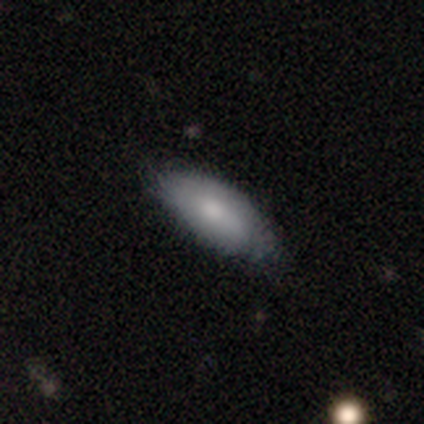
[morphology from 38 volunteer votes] type=smooth (71%); roundness=in between (85%); merging=none (78%).